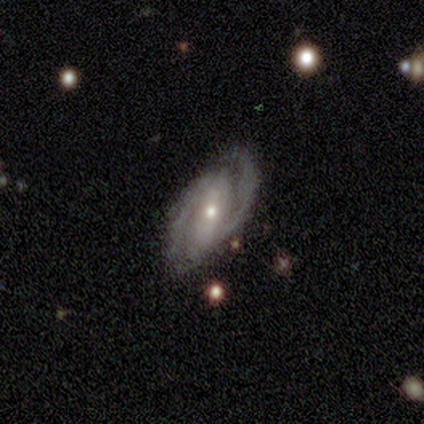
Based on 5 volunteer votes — Overall: featured or disk (100%). Edge-on disk: no (100%). Bar: weak (60%; strong 20%). Spiral arms: yes (80%). Spiral arm count: 2 (75%). Spiral winding: medium (75%). Bulge size: small (100%). Merging: none (100%).